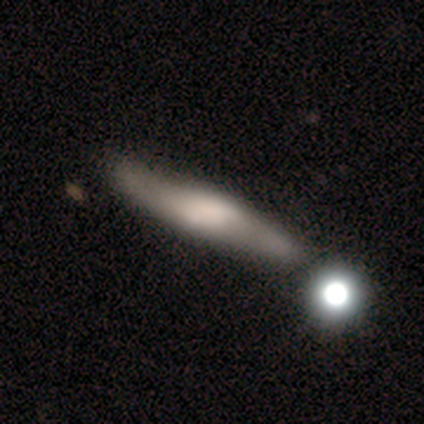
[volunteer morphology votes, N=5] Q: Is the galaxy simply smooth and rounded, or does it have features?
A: featured or disk — 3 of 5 (60%).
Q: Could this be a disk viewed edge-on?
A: yes — 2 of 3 (67%).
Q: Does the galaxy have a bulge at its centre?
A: rounded — 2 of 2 (100%).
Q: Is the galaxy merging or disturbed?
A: none — 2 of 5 (40%, tied with minor disturbance).